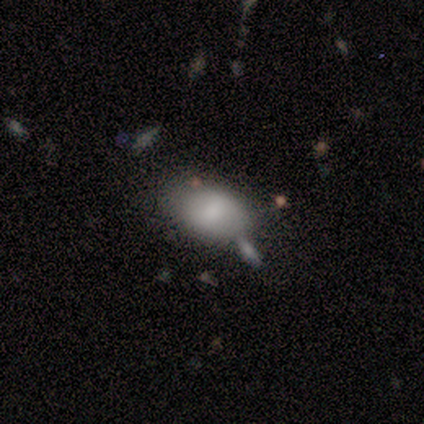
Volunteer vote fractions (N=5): This appears to be a smooth galaxy with no disk features (80%) that is in between round and cigar-shaped (75%). Merging: minor disturbance (60%).